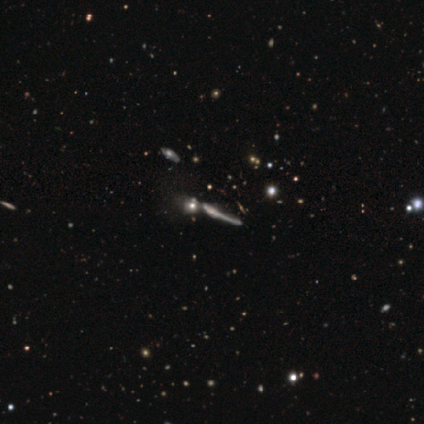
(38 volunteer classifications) Overall: featured or disk (50%; star or artifact 32%). Edge-on disk: yes (89%). Edge-on bulge: none (53%; rounded 29%). Merging: none (54%; merger 31%).